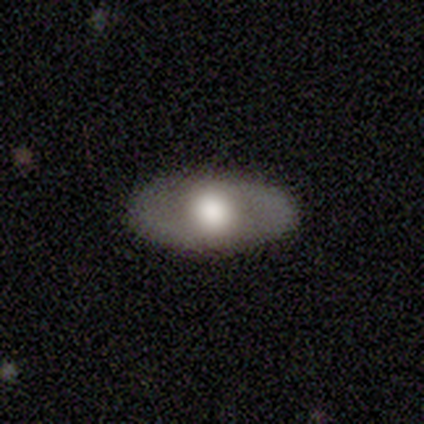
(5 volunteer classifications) Smooth or featured? 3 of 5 (60%) said smooth. How rounded? 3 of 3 (100%) said in between. Merging? 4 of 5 (80%) said none.